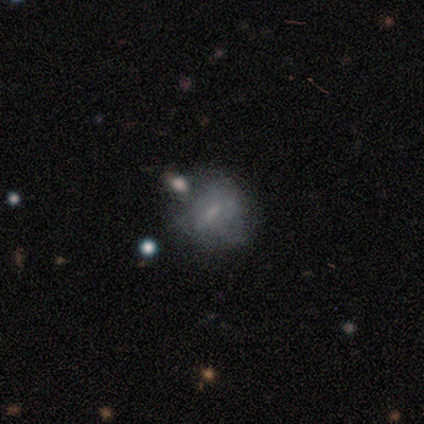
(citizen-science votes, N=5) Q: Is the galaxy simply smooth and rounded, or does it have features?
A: featured or disk — 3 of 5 (60%).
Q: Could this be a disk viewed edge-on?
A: no — 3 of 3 (100%).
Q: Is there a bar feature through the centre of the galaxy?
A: weak — 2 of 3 (67%).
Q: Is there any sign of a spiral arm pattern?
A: no — 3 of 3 (100%).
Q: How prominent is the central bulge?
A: none — 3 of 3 (100%).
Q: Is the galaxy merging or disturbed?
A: none — 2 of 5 (40%, tied with merger).